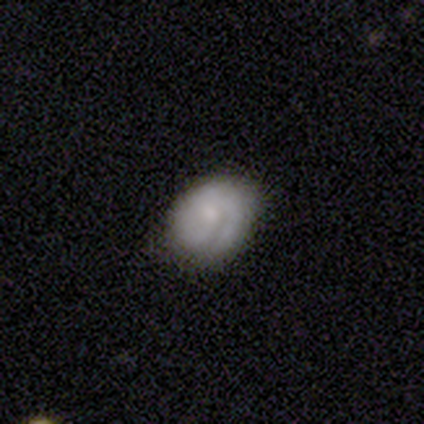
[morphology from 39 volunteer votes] smooth_or_featured: featured or disk (p=0.69) [alt: smooth p=0.28]
disk_edge_on: no (p=0.96) [alt: yes p=0.04]
bar: no (p=0.81) [alt: weak p=0.19]
has_spiral_arms: yes (p=0.65) [alt: no p=0.35]
spiral_winding: tight (p=0.82) [alt: medium p=0.12]
spiral_arm_count: 1 (p=0.35) [tied with: 2 p=0.35]
bulge_size: small (p=0.58) [alt: moderate p=0.27]
merging: none (p=0.89) [alt: minor disturbance p=0.11]